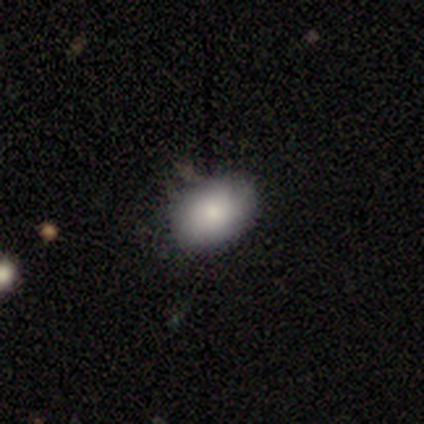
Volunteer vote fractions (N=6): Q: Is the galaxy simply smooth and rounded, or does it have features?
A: smooth — 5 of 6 (83%).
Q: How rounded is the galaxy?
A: in between — 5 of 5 (100%).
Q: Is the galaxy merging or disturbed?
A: none — 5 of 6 (83%).